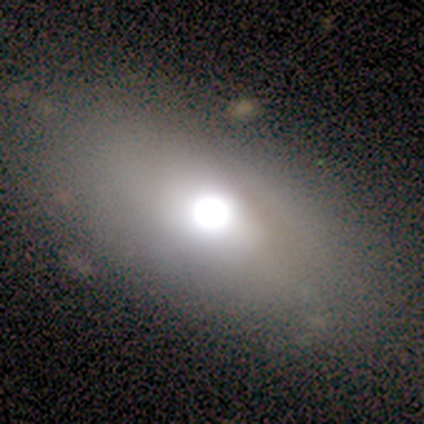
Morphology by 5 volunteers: Smooth or featured? featured or disk (40%, tied with star or artifact)
Edge-on disk? yes (50%, tied with no)
Edge-on bulge? rounded (100%)
Merging? minor disturbance (67%)